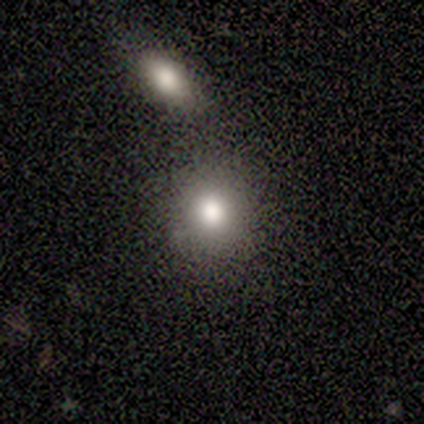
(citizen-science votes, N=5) smooth_or_featured: smooth (p=1.00)
how_rounded: round (p=0.60) [alt: in between p=0.20]
merging: none (p=0.60) [alt: major disturbance p=0.20]